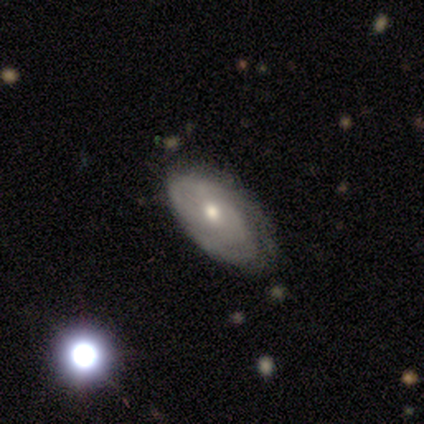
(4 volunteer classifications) Overall: smooth (50%, tied with featured or disk). How rounded: in between (100%). Merging: none (75%).